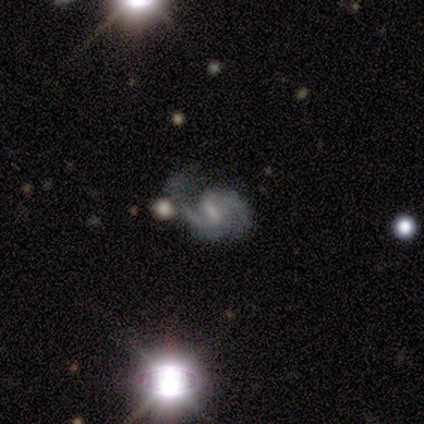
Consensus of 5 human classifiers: Smooth or featured: featured or disk — 80% (smooth — 20%)
Edge-on disk: no — 100%
Bar: weak — 75% (strong — 25%)
Spiral arms: yes — 100%
Spiral winding: medium — 50% (tied with loose — 50%)
Spiral arm count: 2 — 75% (3 — 25%)
Bulge size: moderate — 50% (tied with small — 50%)
Merging: minor disturbance — 40% (tied with major disturbance — 40%)